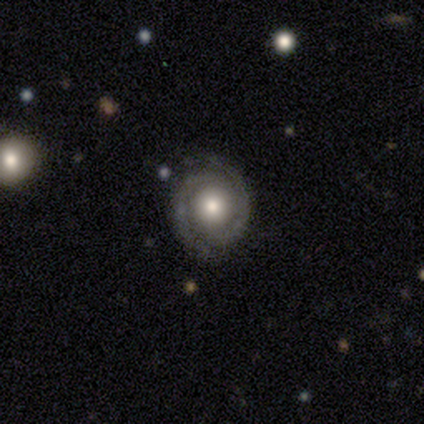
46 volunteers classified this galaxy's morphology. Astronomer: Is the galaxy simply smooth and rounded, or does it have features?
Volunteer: featured or disk — 80%.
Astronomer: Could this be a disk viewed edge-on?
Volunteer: no — 100%.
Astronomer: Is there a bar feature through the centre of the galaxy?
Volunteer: no — 78%.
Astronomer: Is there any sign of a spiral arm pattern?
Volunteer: yes — 89%.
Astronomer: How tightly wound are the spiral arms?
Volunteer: tight — 82%.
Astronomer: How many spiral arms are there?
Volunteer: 2 — 100%.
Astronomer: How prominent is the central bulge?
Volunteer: moderate — 68%.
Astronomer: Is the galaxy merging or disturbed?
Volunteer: none — 74%.